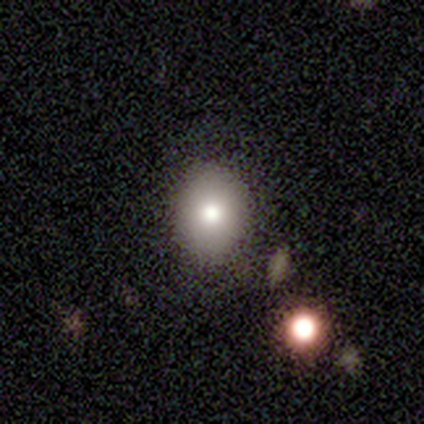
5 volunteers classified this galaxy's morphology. smooth 80%, featured or disk 20%, star or artifact 0%. Down the decision tree: how rounded — in between (75%); merging — none (100%).